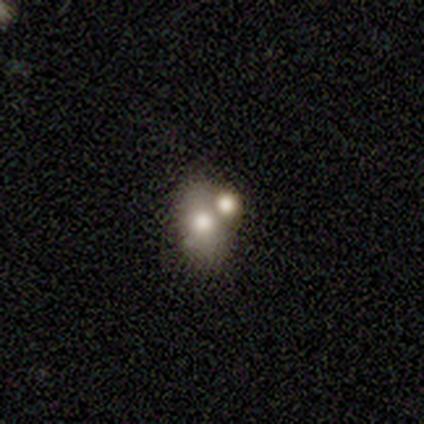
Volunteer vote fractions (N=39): This appears to be a smooth galaxy with no disk features (56%) that is in between round and cigar-shaped (77%). Merging: none (46%, tied with merger).